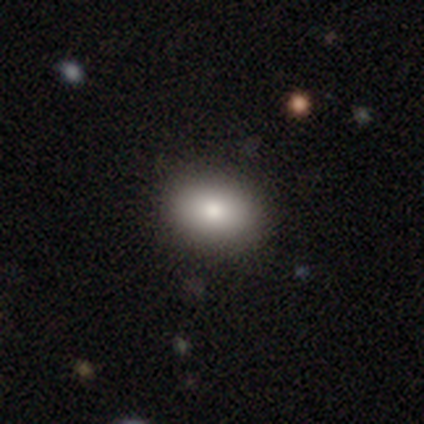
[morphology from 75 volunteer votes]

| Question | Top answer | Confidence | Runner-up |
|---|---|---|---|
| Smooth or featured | smooth | 85% | featured or disk (8%) |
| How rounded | in between | 75% | round (23%) |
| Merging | none | 47% | minor disturbance (3%) |